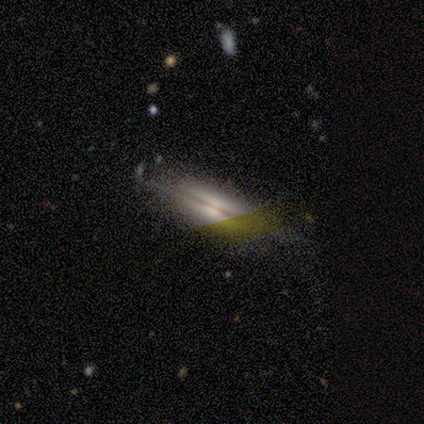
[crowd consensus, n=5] smooth-or-featured: featured or disk: 80% | smooth: 20% | star or artifact: 0%
  disk-edge-on: yes: 100% | no: 0%
    edge-on-bulge: rounded: 75% | none: 25% | boxy: 0%
  merging: none: 80% | minor disturbance: 20% | major disturbance: 0% | merger: 0%